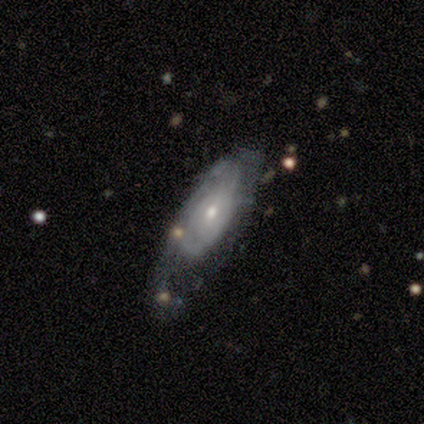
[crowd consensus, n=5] featured or disk 80%, smooth 20%, star or artifact 0%. Down the decision tree: edge-on disk — no (100%); bar — weak (50%, tied with no); spiral arms — yes (100%); spiral arm count — can't tell (50%); spiral winding — medium (75%); bulge size — moderate (75%); merging — major disturbance (60%).